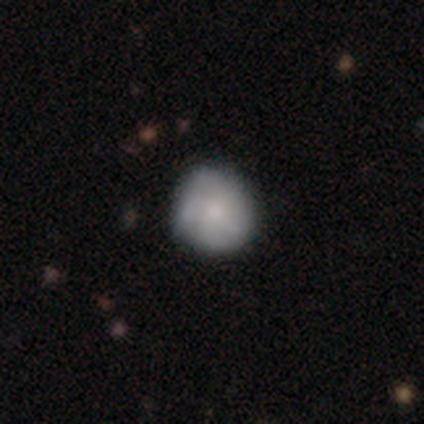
Smooth or featured? 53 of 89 (60%) said smooth. How rounded? 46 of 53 (87%) said round. Merging? 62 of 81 (77%) said none.